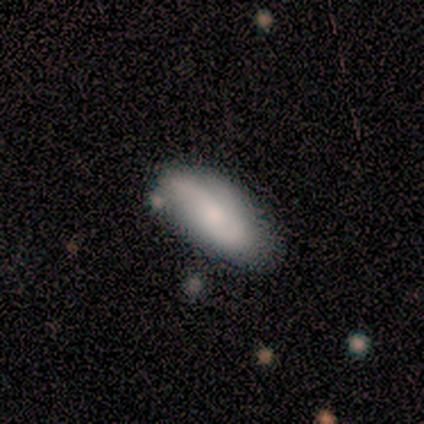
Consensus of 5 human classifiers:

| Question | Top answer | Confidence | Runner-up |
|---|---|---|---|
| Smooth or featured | smooth | 80% | featured or disk (20%) |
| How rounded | in between | 75% | cigar-shaped (25%) |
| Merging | none | 60% | minor disturbance (20%) |